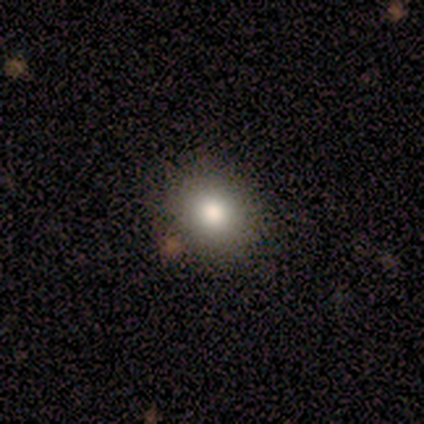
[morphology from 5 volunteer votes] This is clearly a smooth galaxy (80%). How rounded: clearly round (100%). Merging: likely none (75%).